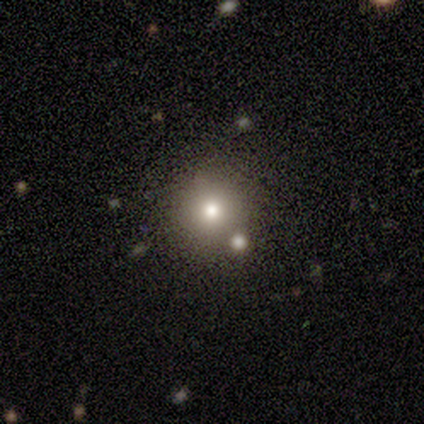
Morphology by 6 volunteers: smooth_or_featured: featured or disk (p=0.50) [tied with: star or artifact p=0.50]
disk_edge_on: no (p=1.00)
bar: no (p=1.00)
has_spiral_arms: no (p=1.00)
bulge_size: moderate (p=1.00)
merging: none (p=1.00)